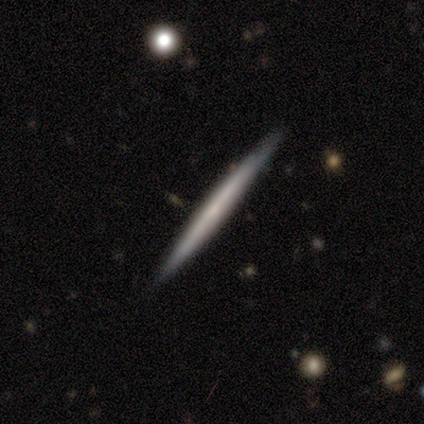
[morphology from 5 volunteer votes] Smooth or featured? smooth (60%)
How rounded? cigar-shaped (100%)
Merging? none (80%)